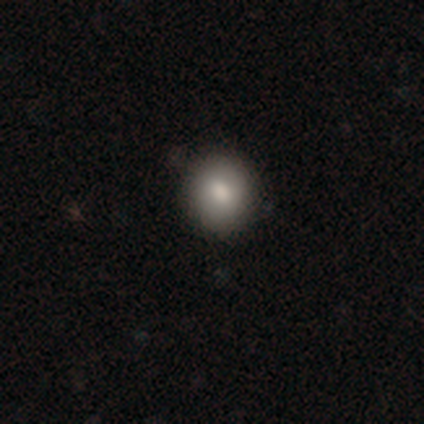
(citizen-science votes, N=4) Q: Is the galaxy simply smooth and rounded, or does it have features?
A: smooth — 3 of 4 (75%).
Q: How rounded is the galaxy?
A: round — 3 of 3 (100%).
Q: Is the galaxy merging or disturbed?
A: none — 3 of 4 (75%).